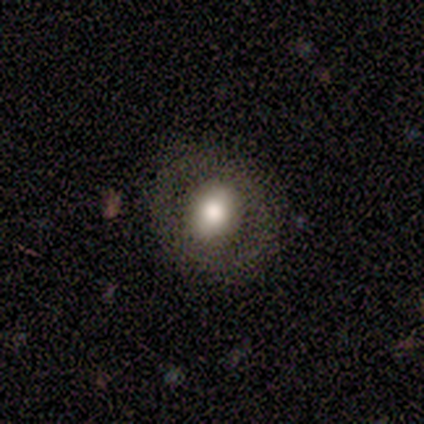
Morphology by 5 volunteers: A smooth galaxy with no disk features (60%) that is in between round and cigar-shaped (100%). Merging: none (80%).